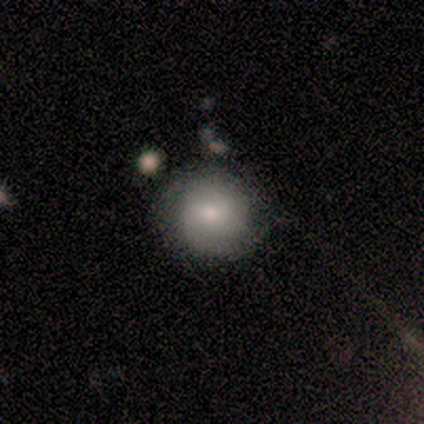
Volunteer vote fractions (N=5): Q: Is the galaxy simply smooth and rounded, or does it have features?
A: smooth — 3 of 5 (60%).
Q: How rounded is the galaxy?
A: round — 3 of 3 (100%).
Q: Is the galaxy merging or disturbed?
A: none — 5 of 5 (100%).